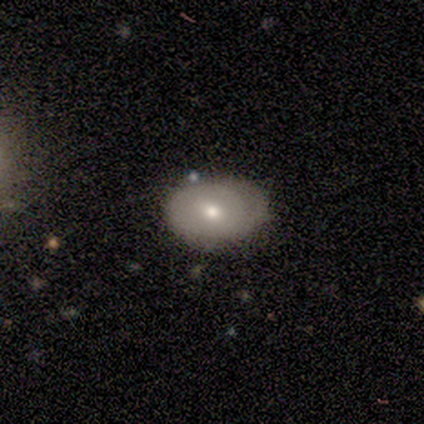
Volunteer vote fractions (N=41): A smooth galaxy with no disk features (61%) that is in between round and cigar-shaped (88%).

Vote fractions:
- Smooth or featured? smooth: 61% / featured or disk: 39% / star or artifact: 0%
- How rounded? in between: 88% / round: 12% / cigar-shaped: 0%
- Merging? none: 63% / minor disturbance: 27% / major disturbance: 5% / merger: 5%